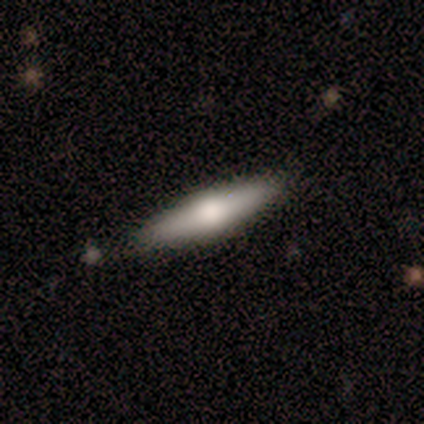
Morphology: type=featured or disk (50%); edge-on=yes (100%); edge-on bulge=rounded (100%); merging=none (100%).